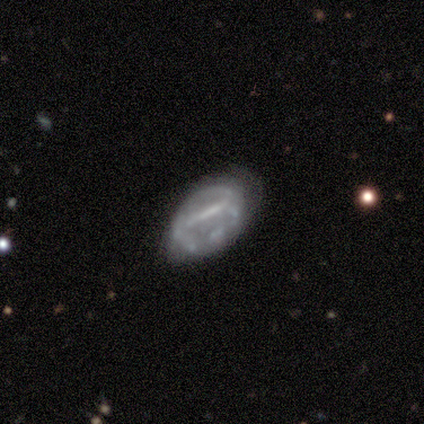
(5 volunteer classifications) Volunteers were most divided on "smooth or featured": featured or disk: 60%, smooth: 40%, star or artifact: 0%. More confident: edge-on disk — no (100%); spiral arms — no (100%); bulge size — none (100%); bar — no (67%); merging — none (60%).